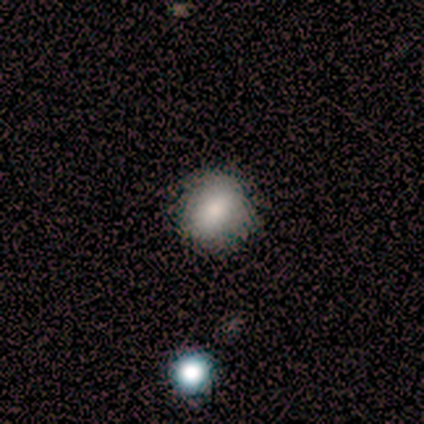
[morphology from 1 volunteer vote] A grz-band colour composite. It shows a star or artifact, not a galaxy (100%).